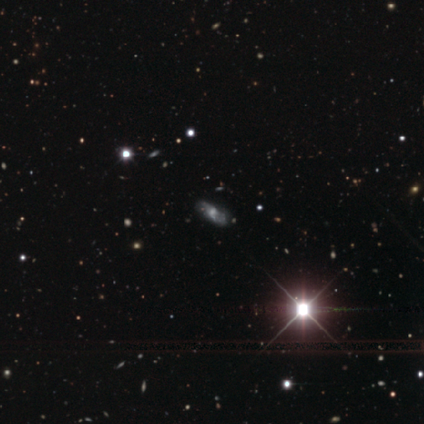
Morphology: type=featured or disk (51%); edge-on=no (75%); bar=no (87%); spiral arms=no (60%); bulge=moderate (53%); merging=none (81%).